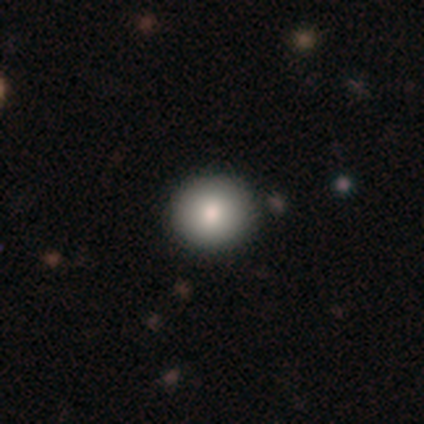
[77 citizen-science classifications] Volunteers were most divided on "merging": none: 52%, minor disturbance: 1%, merger: 1%, major disturbance: 0%. More confident: how rounded — round (94%); smooth or featured — smooth (83%).